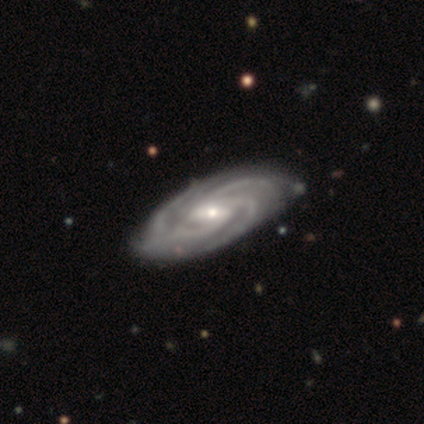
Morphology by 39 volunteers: smooth-or-featured: featured or disk: 95% | star or artifact: 5% | smooth: 0%
  disk-edge-on: no: 95% | yes: 5%
    bar: weak: 43% | strong: 37% | no: 20%
    has-spiral-arms: yes: 100% | no: 0%
      spiral-winding: tight: 69% | medium: 31% | loose: 0%
      spiral-arm-count: 3: 60% | 4: 23% | more than 4: 9% | can't tell: 9% | 1: 0% | 2: 0%
    bulge-size: small: 51% | moderate: 46% | large: 3% | dominant: 0% | none: 0%
  merging: none: 59% | minor disturbance: 11% | merger: 5% | major disturbance: 0%